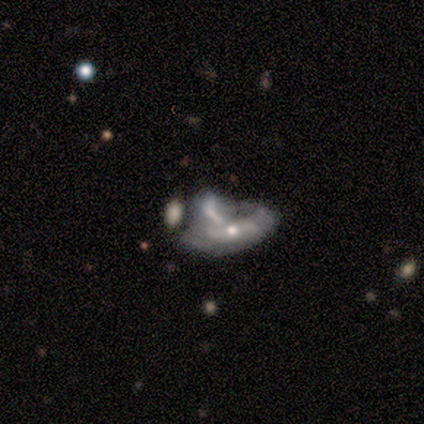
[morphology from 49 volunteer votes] A featured or disk galaxy (80%) with no bar (73%), no spiral arms (70%) and a moderate central bulge (51%). Merging: merger (53%).